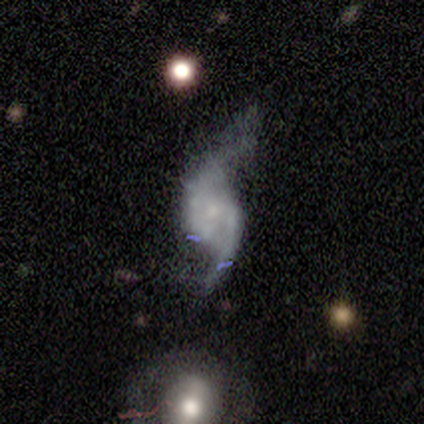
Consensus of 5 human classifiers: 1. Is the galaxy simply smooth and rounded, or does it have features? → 80% featured or disk, 20% star or artifact, 0% smooth.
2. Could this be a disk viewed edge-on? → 100% no, 0% yes.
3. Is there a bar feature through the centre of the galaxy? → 75% no, 25% weak, 0% strong.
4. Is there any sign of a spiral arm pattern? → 100% yes, 0% no.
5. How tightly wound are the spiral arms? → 75% loose, 25% medium, 0% tight.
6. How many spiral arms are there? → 100% 2, 0% 1, 0% 3, 0% 4, 0% more than 4, 0% can't tell.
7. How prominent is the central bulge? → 100% small, 0% dominant, 0% large, 0% moderate, 0% none.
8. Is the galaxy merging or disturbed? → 50% minor disturbance, 25% none, 25% major disturbance, 0% merger.